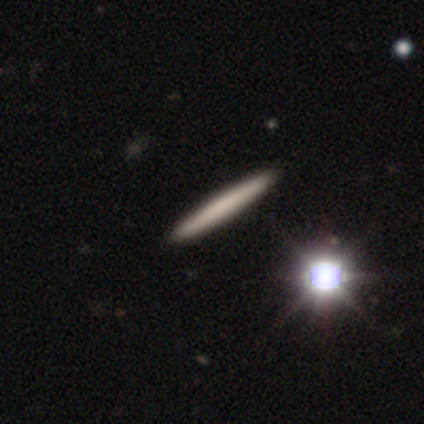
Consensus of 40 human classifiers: smooth-or-featured: smooth: 62% | featured or disk: 22% | star or artifact: 15%
  how-rounded: cigar-shaped: 96% | round: 4% | in between: 0%
  merging: none: 71% | merger: 3% | minor disturbance: 0% | major disturbance: 0%